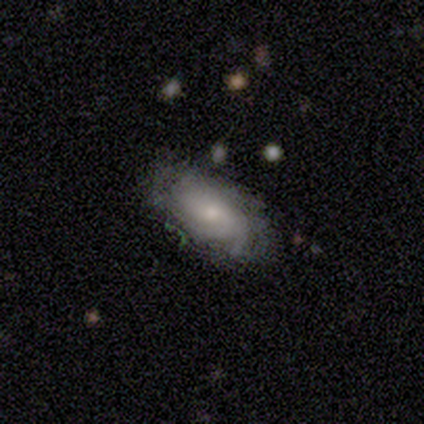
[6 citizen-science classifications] Smooth or featured? 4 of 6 (67%) said smooth. How rounded? 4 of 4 (100%) said in between. Merging? 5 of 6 (83%) said none.